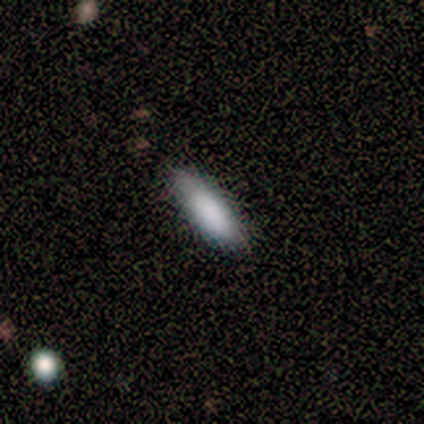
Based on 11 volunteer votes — Morphology: type=smooth (73%); roundness=in between (62%); merging=none (80%).